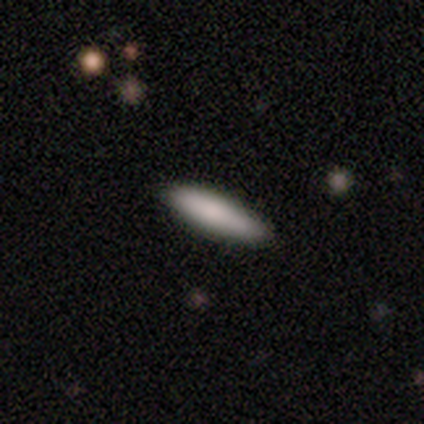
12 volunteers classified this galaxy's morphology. This is clearly a smooth galaxy (92%). How rounded: likely cigar-shaped (64%). Merging: clearly none (100%).